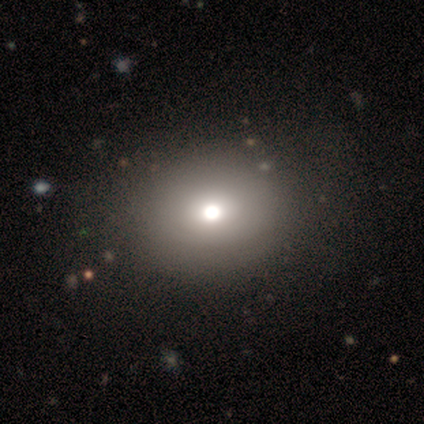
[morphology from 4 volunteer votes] Overall: smooth (75%). How rounded: round (67%; in between 33%). Merging: none (75%).